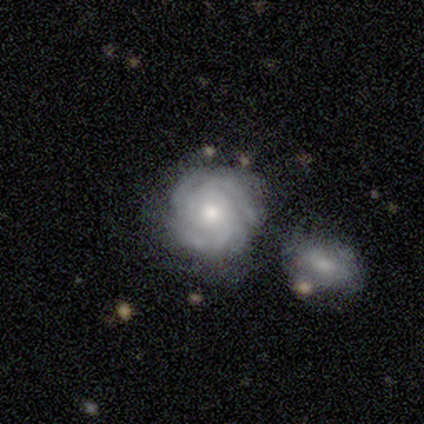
Morphology: type=featured or disk (79%); edge-on=no (100%); bar=no (83%); spiral arms=yes (100%); winding=tight (83%); arm count=4 (37%); bulge=moderate (73%); merging=none (63%).